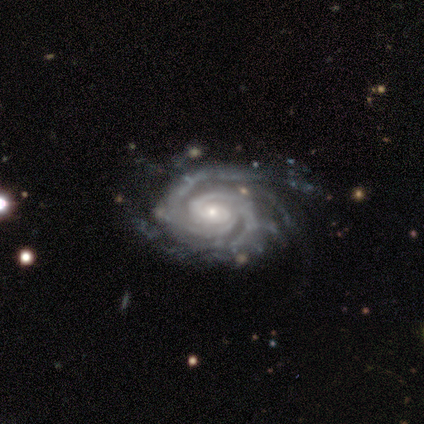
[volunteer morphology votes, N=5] Smooth or featured?
  - featured or disk: 100% *
  - smooth: 0%
  - star or artifact: 0%
Edge-on disk?
  - no: 100% *
  - yes: 0%
Bar?
  - weak: 40% * (tied)
  - no: 40% * (tied)
  - strong: 20%
Spiral arms?
  - yes: 100% *
  - no: 0%
Spiral winding?
  - tight: 100% *
  - medium: 0%
  - loose: 0%
Spiral arm count?
  - 3: 60% *
  - 2: 20%
  - 4: 20%
  - 1: 0%
  - more than 4: 0%
  - can't tell: 0%
Bulge size?
  - small: 80% *
  - moderate: 20%
  - dominant: 0%
  - large: 0%
  - none: 0%
Merging?
  - none: 80% *
  - minor disturbance: 20%
  - major disturbance: 0%
  - merger: 0%